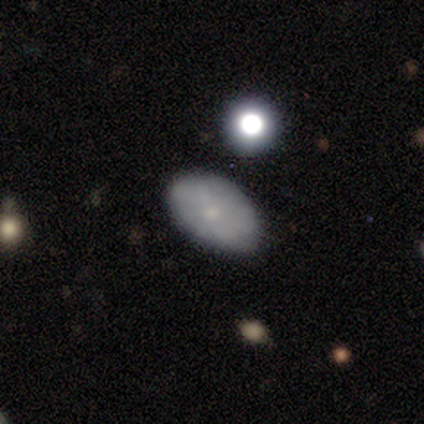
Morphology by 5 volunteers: smooth-or-featured: smooth: 80% | featured or disk: 20% | star or artifact: 0%
  how-rounded: in between: 100% | round: 0% | cigar-shaped: 0%
  merging: none: 100% | minor disturbance: 0% | major disturbance: 0% | merger: 0%